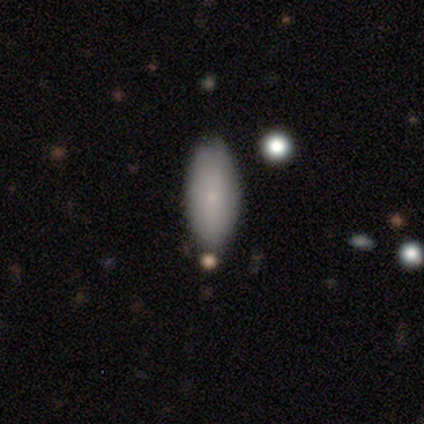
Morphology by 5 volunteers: Smooth or featured?
  - smooth: 80% *
  - featured or disk: 20%
  - star or artifact: 0%
How rounded?
  - in between: 100% *
  - round: 0%
  - cigar-shaped: 0%
Merging?
  - none: 80% *
  - minor disturbance: 20%
  - major disturbance: 0%
  - merger: 0%